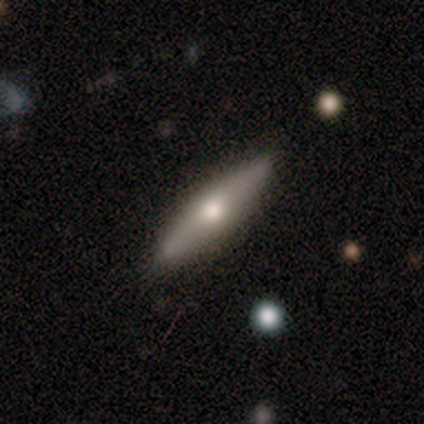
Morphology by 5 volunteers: Smooth or featured?
  - smooth: 60% *
  - featured or disk: 40%
  - star or artifact: 0%
How rounded?
  - in between: 67% *
  - cigar-shaped: 33%
  - round: 0%
Merging?
  - none: 100% *
  - minor disturbance: 0%
  - major disturbance: 0%
  - merger: 0%